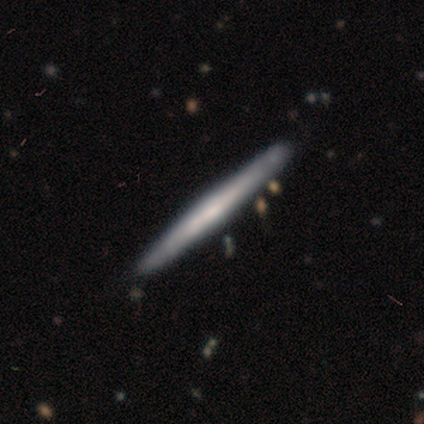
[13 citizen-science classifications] smooth-or-featured: smooth: 69% | featured or disk: 31% | star or artifact: 0%
  how-rounded: cigar-shaped: 100% | round: 0% | in between: 0%
  merging: none: 85% | minor disturbance: 15% | major disturbance: 0% | merger: 0%